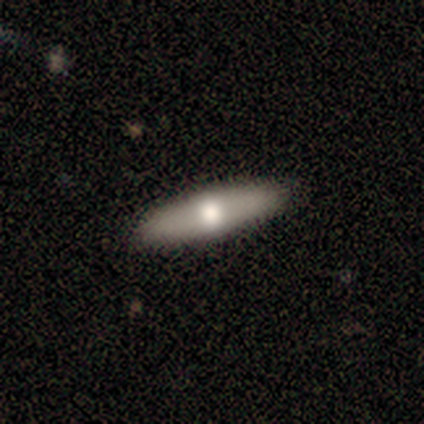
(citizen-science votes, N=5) A featured or disk galaxy (60%) viewed edge-on (100%) with a rounded central bulge (100%). Merging: none (100%).